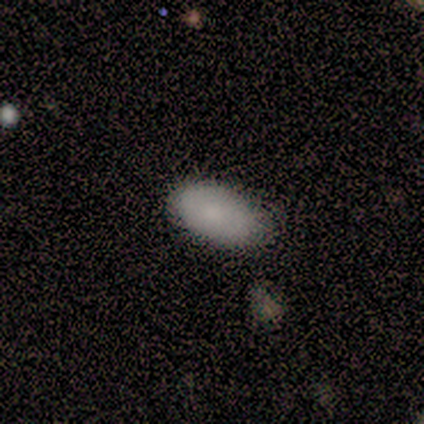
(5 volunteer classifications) Overall: smooth (100%). How rounded: in between (80%). Merging: none (60%; minor disturbance 40%).